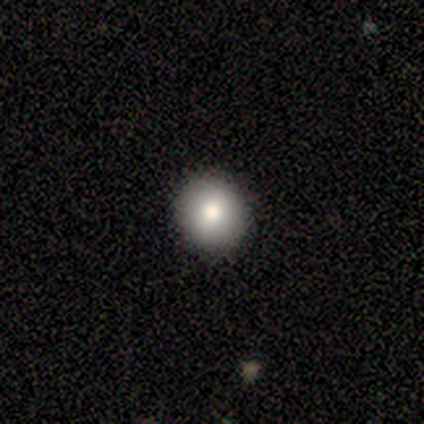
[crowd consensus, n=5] Smooth or featured?
  - smooth: 100% *
  - featured or disk: 0%
  - star or artifact: 0%
How rounded?
  - round: 100% *
  - in between: 0%
  - cigar-shaped: 0%
Merging?
  - none: 100% *
  - minor disturbance: 0%
  - major disturbance: 0%
  - merger: 0%